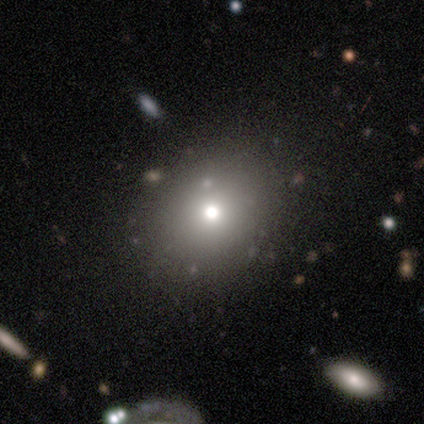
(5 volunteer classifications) Volunteers were most divided on "smooth or featured" (2-way tie): smooth: 40%, star or artifact: 40%, featured or disk: 20%. More confident: how rounded — round (100%); merging — none (100%).